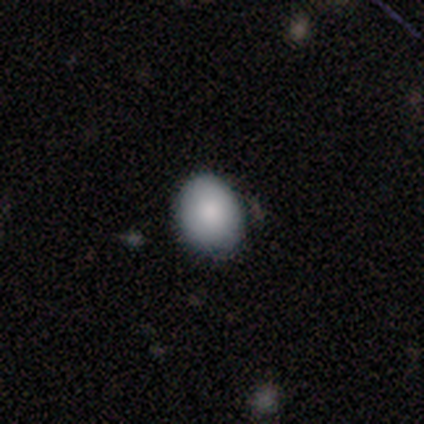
smooth_or_featured: smooth (p=1.00)
how_rounded: round (p=0.50) [tied with: in between p=0.50]
merging: none (p=1.00)